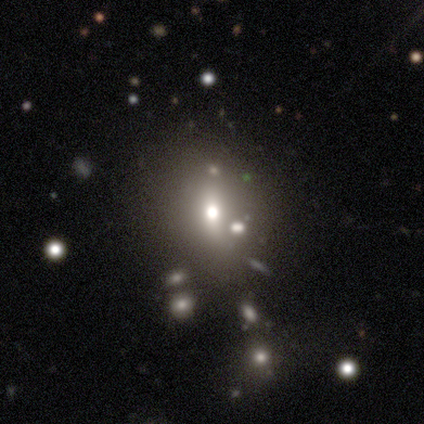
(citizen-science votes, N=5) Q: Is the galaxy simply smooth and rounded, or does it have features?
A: smooth — 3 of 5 (60%).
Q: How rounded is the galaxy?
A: round — 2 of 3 (67%).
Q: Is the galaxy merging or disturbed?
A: none — 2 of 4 (50%, tied with minor disturbance).